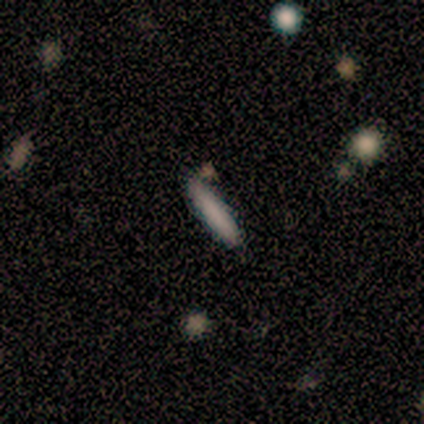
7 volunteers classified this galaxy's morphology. smooth_or_featured: featured or disk (p=0.57) [alt: smooth p=0.43]
disk_edge_on: yes (p=1.00)
edge_on_bulge: none (p=1.00)
merging: none (p=0.43) [alt: minor disturbance p=0.29]